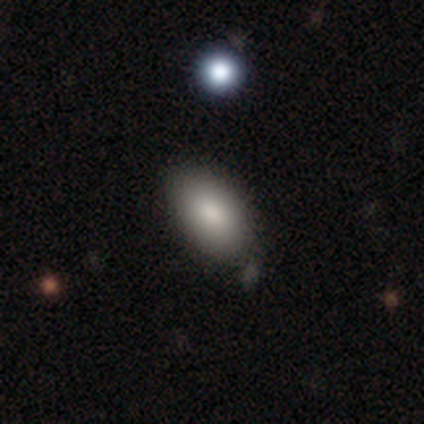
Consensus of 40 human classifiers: Smooth or featured? smooth (98%)
How rounded? in between (92%)
Merging? none (49%)